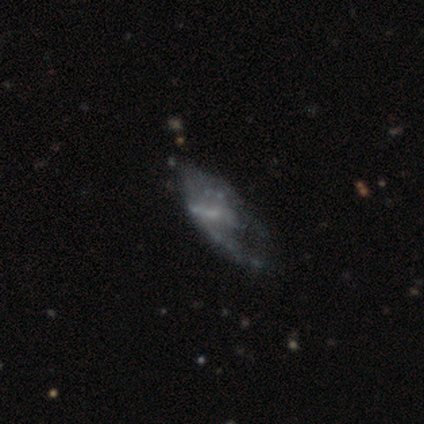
Overall: featured or disk (78%). Edge-on disk: no (100%). Bar: no (52%; weak 42%). Spiral arms: yes (52%; no 48%). Spiral arm count: 2 (44%; can't tell 38%). Spiral winding: loose (56%; medium 44%). Bulge size: small (48%; none 45%). Merging: major disturbance (46%; none 16%).